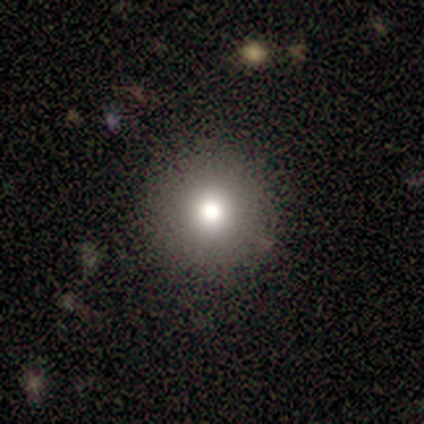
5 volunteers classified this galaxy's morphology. A smooth galaxy with no disk features (80%) that is round (100%).

Vote fractions:
- Smooth or featured? smooth: 80% / star or artifact: 20% / featured or disk: 0%
- How rounded? round: 100% / in between: 0% / cigar-shaped: 0%
- Merging? none: 75% / minor disturbance: 25% / major disturbance: 0% / merger: 0%